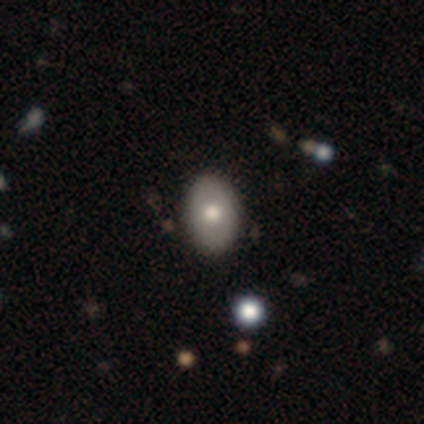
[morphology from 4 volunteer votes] Smooth or featured?
  - smooth: 75% *
  - featured or disk: 25%
  - star or artifact: 0%
How rounded?
  - in between: 100% *
  - round: 0%
  - cigar-shaped: 0%
Merging?
  - none: 100% *
  - minor disturbance: 0%
  - major disturbance: 0%
  - merger: 0%